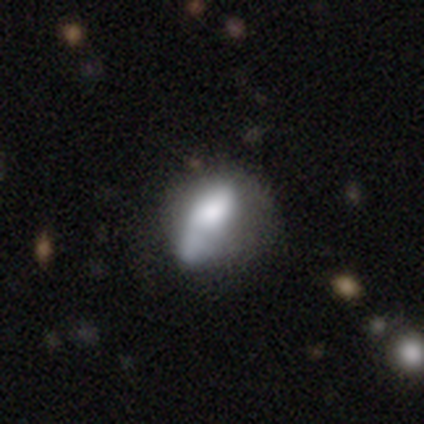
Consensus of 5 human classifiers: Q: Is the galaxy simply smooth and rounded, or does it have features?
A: featured or disk — 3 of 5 (60%).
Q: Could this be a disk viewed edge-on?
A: no — 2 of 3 (67%).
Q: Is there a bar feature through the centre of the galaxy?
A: no — 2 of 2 (100%).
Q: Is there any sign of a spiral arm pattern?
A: yes — 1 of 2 (50%, tied with no).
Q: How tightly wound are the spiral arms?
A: loose — 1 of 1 (100%).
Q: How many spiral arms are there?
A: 1 — 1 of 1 (100%).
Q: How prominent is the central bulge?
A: dominant — 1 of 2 (50%, tied with moderate).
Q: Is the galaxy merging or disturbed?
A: none — 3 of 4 (75%).